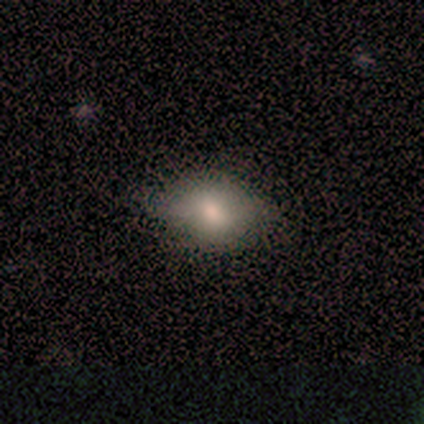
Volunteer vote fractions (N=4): smooth-or-featured: smooth: 50% (tied) | featured or disk: 50% (tied) | star or artifact: 0%
  how-rounded: in between: 100% | round: 0% | cigar-shaped: 0%
  merging: none: 50% (tied) | minor disturbance: 50% (tied) | major disturbance: 0% | merger: 0%